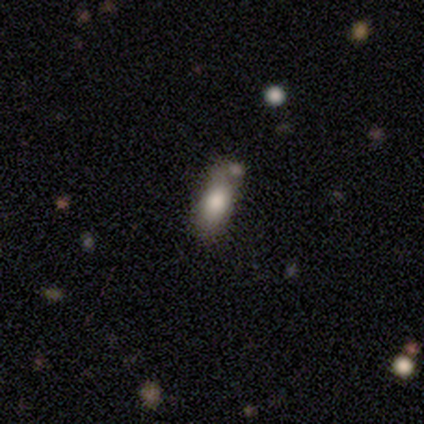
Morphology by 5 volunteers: Smooth or featured?
  - smooth: 80% *
  - featured or disk: 20%
  - star or artifact: 0%
How rounded?
  - cigar-shaped: 75% *
  - in between: 25%
  - round: 0%
Merging?
  - none: 40% * (tied)
  - merger: 40% * (tied)
  - minor disturbance: 20%
  - major disturbance: 0%